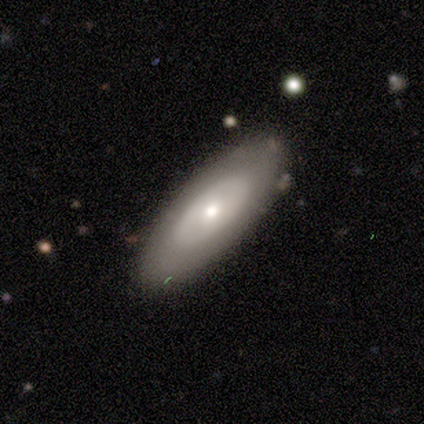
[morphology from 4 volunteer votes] Smooth or featured? smooth (50%, tied with featured or disk)
How rounded? in between (100%)
Merging? none (75%)